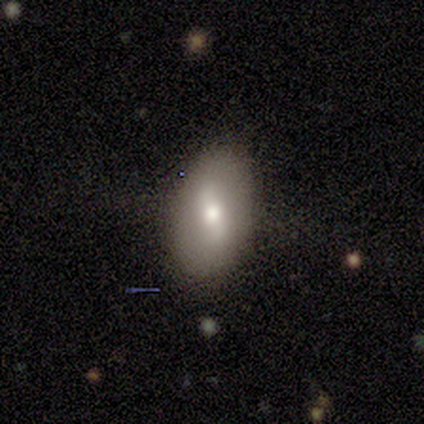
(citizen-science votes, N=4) A smooth galaxy with no disk features (75%) that is in between round and cigar-shaped (67%).

Vote fractions:
- Smooth or featured? smooth: 75% / star or artifact: 25% / featured or disk: 0%
- How rounded? in between: 67% / round: 33% / cigar-shaped: 0%
- Merging? none: 100% / minor disturbance: 0% / major disturbance: 0% / merger: 0%